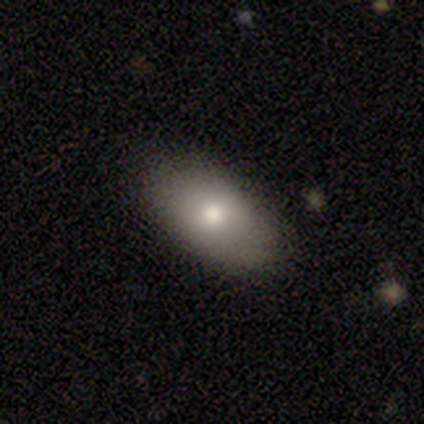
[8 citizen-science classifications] Morphology: type=smooth (88%); roundness=in between (100%); merging=none (100%).